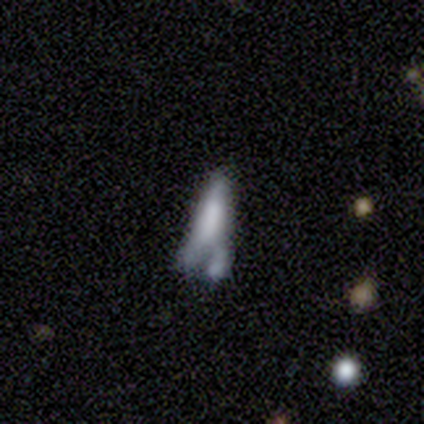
Overall: featured or disk (50%; smooth 25%). Edge-on disk: yes (50%, tied with no). Edge-on bulge: none (100%). Merging: merger (67%; major disturbance 33%).